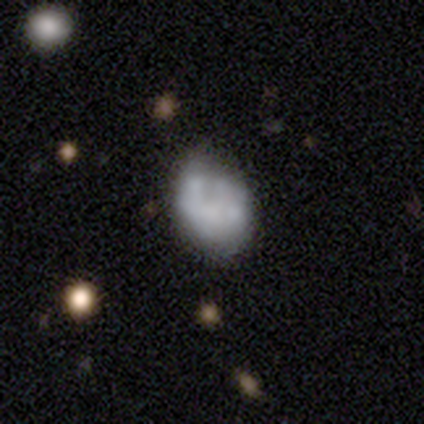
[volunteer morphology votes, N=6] Volunteers were most divided on "smooth or featured" (2-way tie): smooth: 50%, featured or disk: 50%, star or artifact: 0%. More confident: how rounded — in between (67%); merging — none (50%).